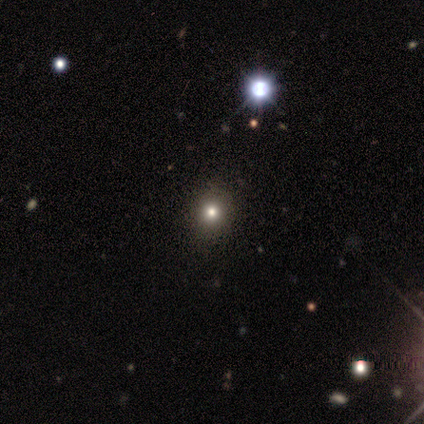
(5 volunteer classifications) smooth-or-featured: smooth: 80% | star or artifact: 20% | featured or disk: 0%
  how-rounded: round: 100% | in between: 0% | cigar-shaped: 0%
  merging: none: 100% | minor disturbance: 0% | major disturbance: 0% | merger: 0%